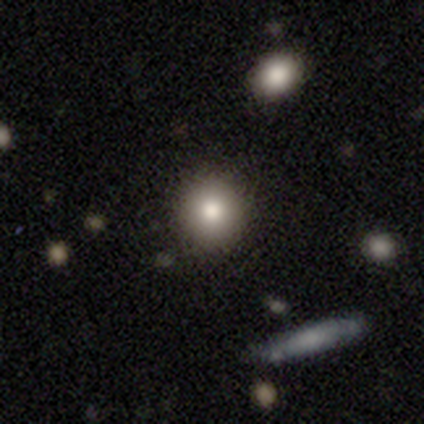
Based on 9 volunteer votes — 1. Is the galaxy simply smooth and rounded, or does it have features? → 78% smooth, 22% featured or disk, 0% star or artifact.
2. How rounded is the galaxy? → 86% round, 14% in between, 0% cigar-shaped.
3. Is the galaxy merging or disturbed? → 78% none, 11% minor disturbance, 11% merger, 0% major disturbance.